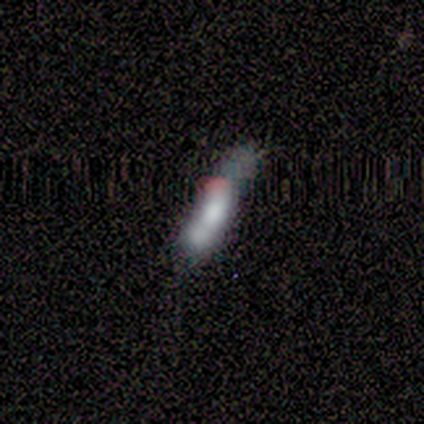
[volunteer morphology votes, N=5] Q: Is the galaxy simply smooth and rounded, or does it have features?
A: smooth — 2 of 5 (40%, tied with star or artifact).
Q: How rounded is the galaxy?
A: cigar-shaped — 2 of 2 (100%).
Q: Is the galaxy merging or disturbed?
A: none — 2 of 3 (67%).